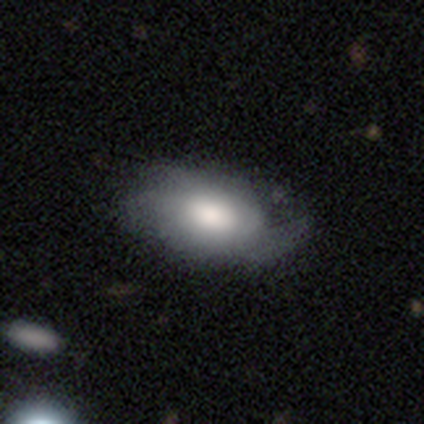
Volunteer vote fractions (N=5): Morphology: type=smooth (80%); roundness=in between (100%); merging=minor disturbance (40%, tied with major disturbance).